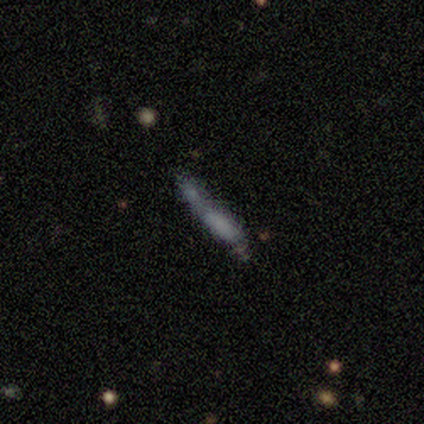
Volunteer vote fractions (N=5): A star or artifact, not a galaxy (60%).